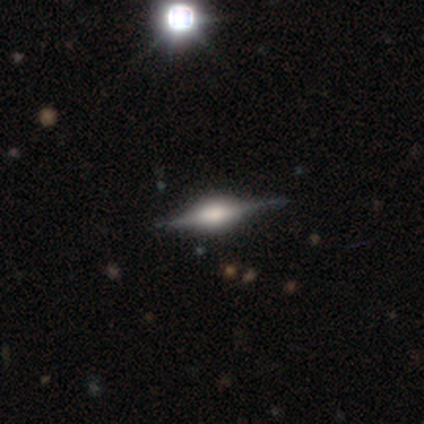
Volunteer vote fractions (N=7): Morphology: type=featured or disk (100%); edge-on=yes (100%); edge-on bulge=rounded (86%); merging=none (71%).